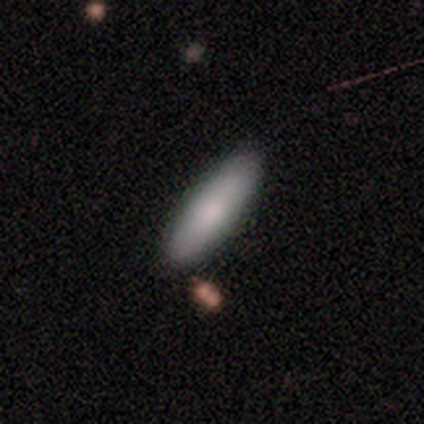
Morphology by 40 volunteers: Volunteers were most divided on "how rounded": in between: 61%, cigar-shaped: 39%, round: 0%. More confident: smooth or featured — smooth (82%); merging — none (65%).